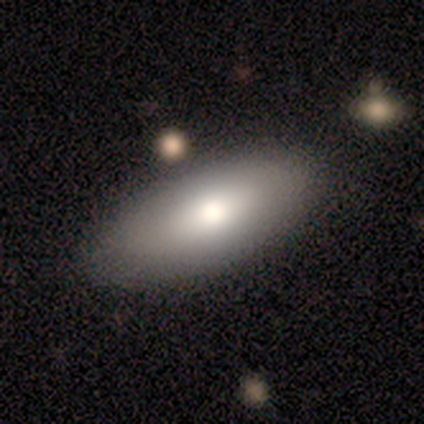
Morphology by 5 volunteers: Smooth or featured? smooth (80%)
How rounded? in between (75%)
Merging? none (80%)